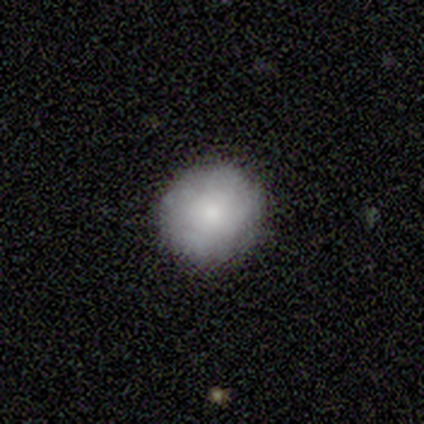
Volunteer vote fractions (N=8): Overall: smooth (88%). How rounded: round (100%). Merging: none (88%).